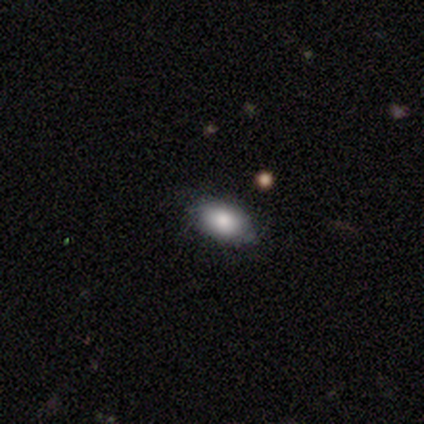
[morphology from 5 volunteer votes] This is clearly a smooth galaxy (100%). How rounded: clearly in between (100%). Merging: clearly none (80%).